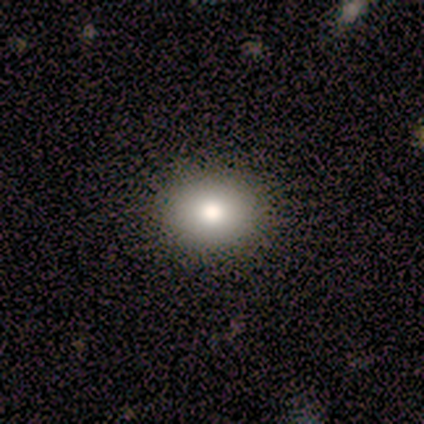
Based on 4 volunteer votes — Smooth or featured? 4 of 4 (100%) said smooth. How rounded? 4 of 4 (100%) said in between. Merging? 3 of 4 (75%) said none.